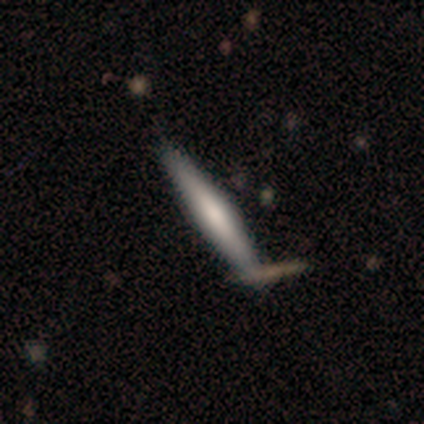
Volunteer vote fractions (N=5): Smooth or featured: smooth — 80% (featured or disk — 20%)
How rounded: cigar-shaped — 75% (in between — 25%)
Merging: none — 100%